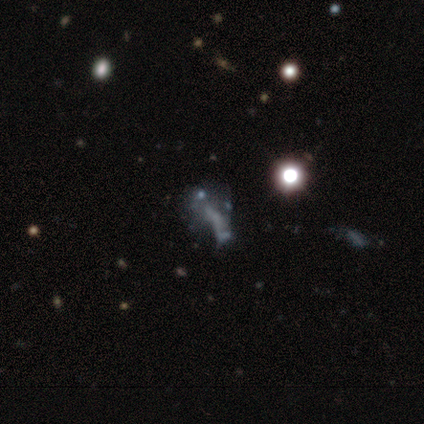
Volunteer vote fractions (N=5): smooth_or_featured: featured or disk (p=0.80) [alt: star or artifact p=0.20]
disk_edge_on: no (p=0.75) [alt: yes p=0.25]
bar: no (p=0.67) [alt: strong p=0.33]
has_spiral_arms: no (p=1.00)
bulge_size: none (p=0.67) [alt: small p=0.33]
merging: none (p=0.25) [tied with: minor disturbance p=0.25, major disturbance p=0.25, merger p=0.25]